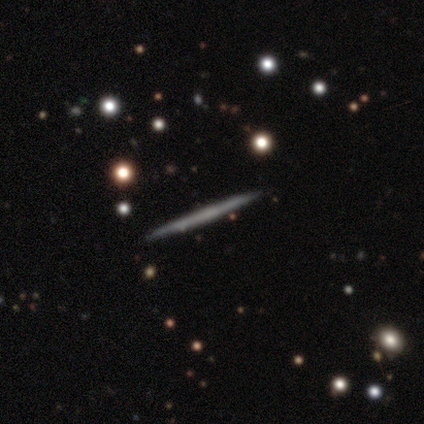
Smooth or featured: featured or disk — 61% (smooth — 39%)
Edge-on disk: yes — 100%
Edge-on bulge: none — 91% (boxy — 9%)
Merging: none — 76% (major disturbance — 5%)